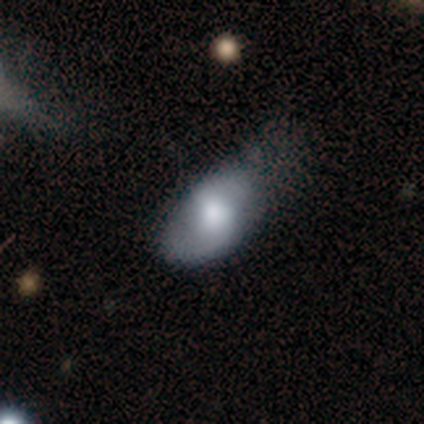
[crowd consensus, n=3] smooth-or-featured: smooth: 67% | featured or disk: 33% | star or artifact: 0%
  how-rounded: in between: 100% | round: 0% | cigar-shaped: 0%
  merging: none: 100% | minor disturbance: 0% | major disturbance: 0% | merger: 0%